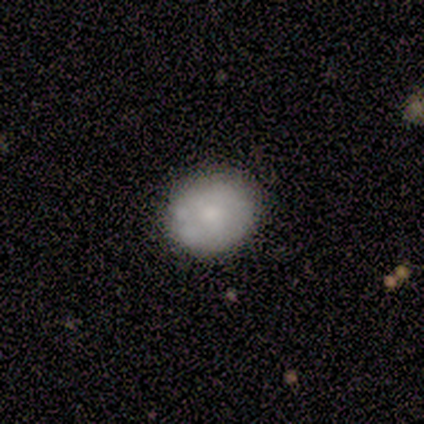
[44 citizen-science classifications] Smooth or featured? 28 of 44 (64%) said smooth. How rounded? 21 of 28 (75%) said round. Merging? 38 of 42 (90%) said none.